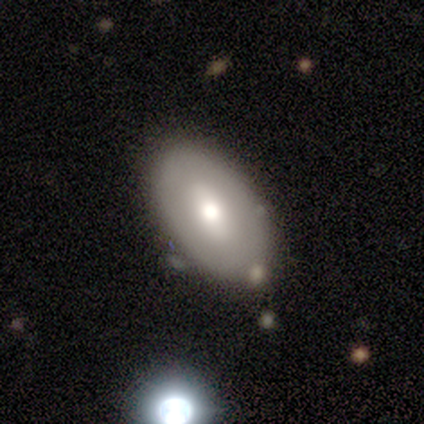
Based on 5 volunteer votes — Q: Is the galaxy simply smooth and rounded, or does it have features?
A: smooth — 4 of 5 (80%).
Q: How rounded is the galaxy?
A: in between — 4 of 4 (100%).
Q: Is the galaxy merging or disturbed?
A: none — 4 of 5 (80%).